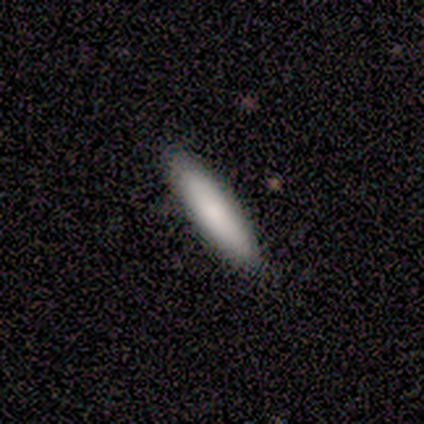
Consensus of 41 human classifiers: Smooth or featured? smooth (76%)
How rounded? cigar-shaped (68%)
Merging? none (86%)